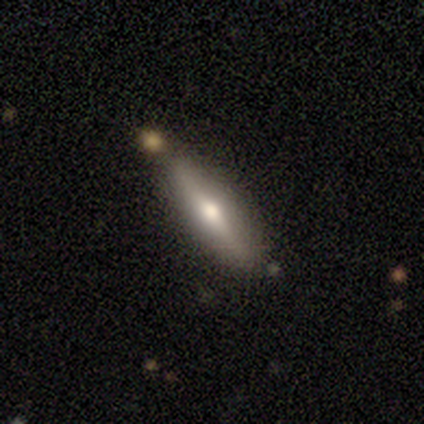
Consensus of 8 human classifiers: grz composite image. It shows a featured or disk galaxy (75%) viewed edge-on (83%) with a rounded central bulge (100%). Merging: none (88%).